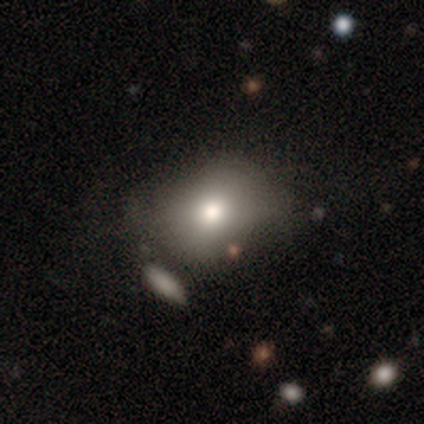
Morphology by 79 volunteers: Smooth or featured?
  - smooth: 80% *
  - star or artifact: 11%
  - featured or disk: 9%
How rounded?
  - in between: 68% *
  - round: 30%
  - cigar-shaped: 2%
Merging?
  - none: 27% *
  - minor disturbance: 17%
  - merger: 16%
  - major disturbance: 4%